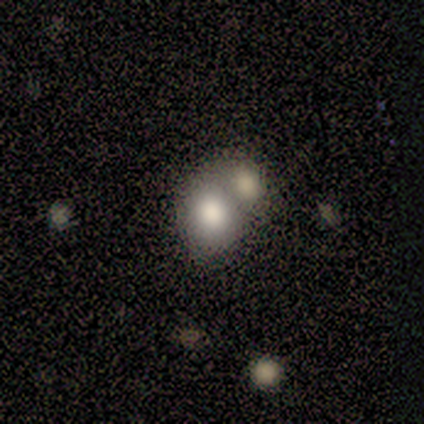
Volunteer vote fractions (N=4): smooth_or_featured: smooth (p=1.00)
how_rounded: round (p=0.75) [alt: in between p=0.25]
merging: none (p=0.50) [tied with: merger p=0.50]